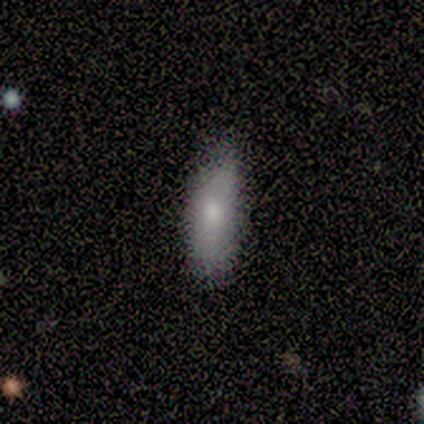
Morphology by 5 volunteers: Smooth or featured?
  - smooth: 80% *
  - featured or disk: 20%
  - star or artifact: 0%
How rounded?
  - in between: 50% * (tied)
  - cigar-shaped: 50% * (tied)
  - round: 0%
Merging?
  - minor disturbance: 60% *
  - none: 40%
  - major disturbance: 0%
  - merger: 0%